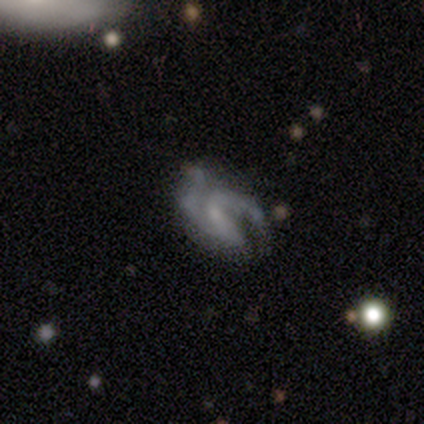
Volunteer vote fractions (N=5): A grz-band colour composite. It shows a featured or disk galaxy (80%) with no bar (75%), 2 (75%) medium (75%) spiral arms (100%) and a small central bulge (100%). Merging: minor disturbance (60%).